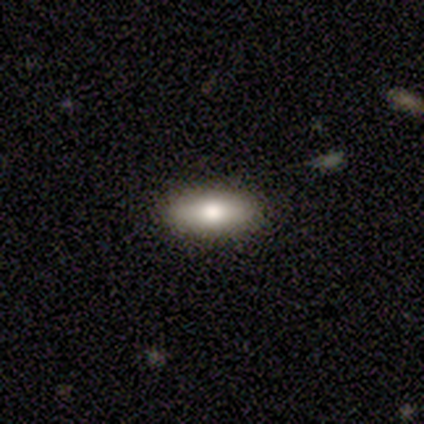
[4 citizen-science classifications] Smooth or featured?
  - smooth: 75% *
  - star or artifact: 25%
  - featured or disk: 0%
How rounded?
  - in between: 67% *
  - round: 33%
  - cigar-shaped: 0%
Merging?
  - none: 67% *
  - minor disturbance: 33%
  - major disturbance: 0%
  - merger: 0%